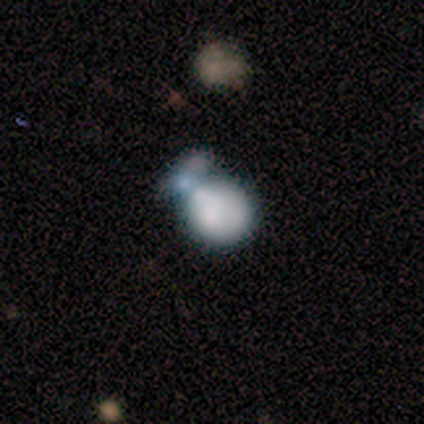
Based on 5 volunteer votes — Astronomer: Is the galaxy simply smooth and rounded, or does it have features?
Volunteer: smooth — 80%.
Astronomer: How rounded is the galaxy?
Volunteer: round — 100%.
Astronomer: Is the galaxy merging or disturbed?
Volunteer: merger — 50%.